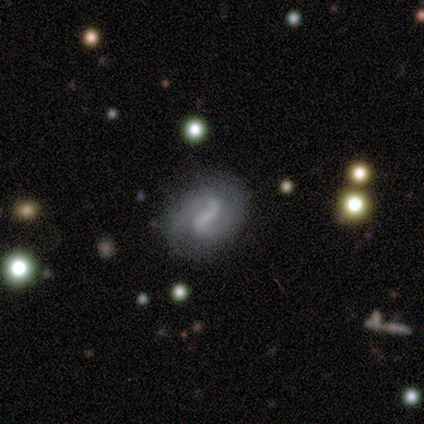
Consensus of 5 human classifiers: Smooth or featured? featured or disk (100%)
Edge-on disk? no (100%)
Bar? weak (40%, tied with no)
Spiral arms? yes (100%)
Spiral winding? medium (60%)
Spiral arm count? 2 (80%)
Bulge size? small (40%, tied with none)
Merging? none (100%)